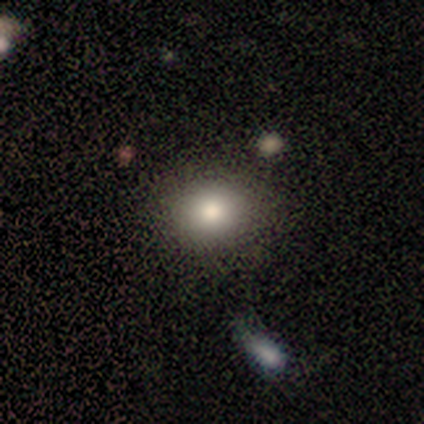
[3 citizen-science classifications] smooth_or_featured: smooth (p=1.00)
how_rounded: round (p=1.00)
merging: none (p=1.00)